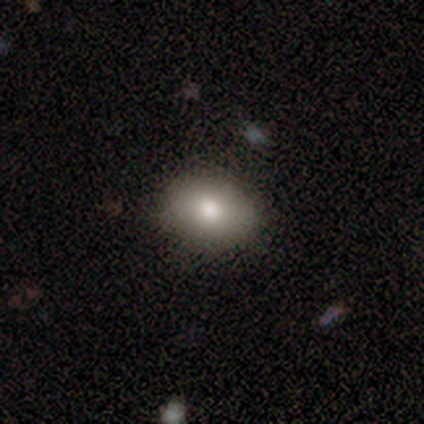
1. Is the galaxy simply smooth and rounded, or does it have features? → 90% smooth, 8% featured or disk, 3% star or artifact.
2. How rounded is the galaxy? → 63% in between, 37% round, 0% cigar-shaped.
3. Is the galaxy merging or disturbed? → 97% none, 3% minor disturbance, 0% major disturbance, 0% merger.